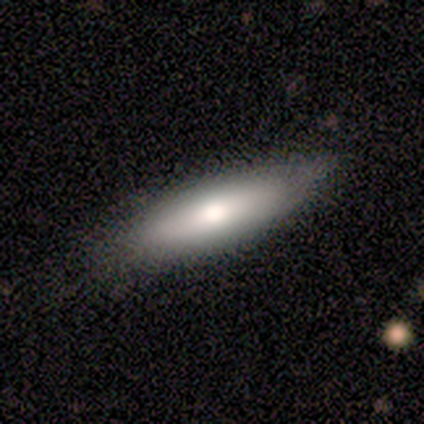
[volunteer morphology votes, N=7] A smooth galaxy with no disk features (71%) that is cigar-shaped (60%).

Vote fractions:
- Smooth or featured? smooth: 71% / featured or disk: 29% / star or artifact: 0%
- How rounded? cigar-shaped: 60% / in between: 40% / round: 0%
- Merging? none: 71% / minor disturbance: 29% / major disturbance: 0% / merger: 0%